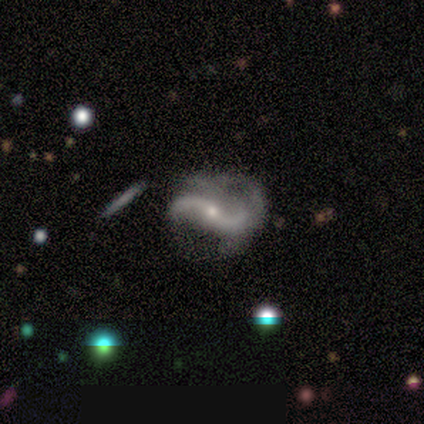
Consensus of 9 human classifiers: This is clearly a featured or disk galaxy (89%). It is clearly not viewed edge-on (100%). Bar: likely no (62%). Spiral arm pattern: clearly yes (100%). Spiral arm count: clearly 2 (88%). Spiral winding: clearly loose (88%). Central bulge: clearly small (88%). Merging: possibly none (50%).